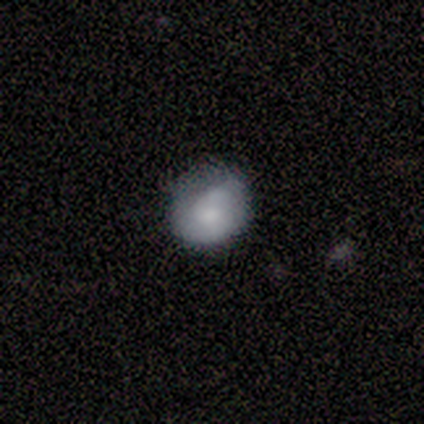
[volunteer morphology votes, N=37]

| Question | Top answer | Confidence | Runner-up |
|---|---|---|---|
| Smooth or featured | smooth | 57% | featured or disk (32%) |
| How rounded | round | 95% | in between (5%) |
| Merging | none | 55% | minor disturbance (24%) |